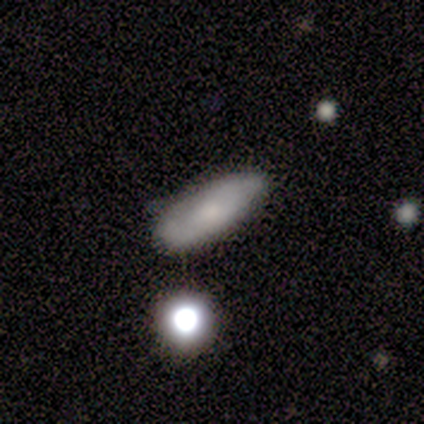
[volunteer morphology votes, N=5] Volunteers were most divided on "smooth or featured": smooth: 60%, featured or disk: 40%, star or artifact: 0%. More confident: how rounded — in between (100%); merging — none (80%).